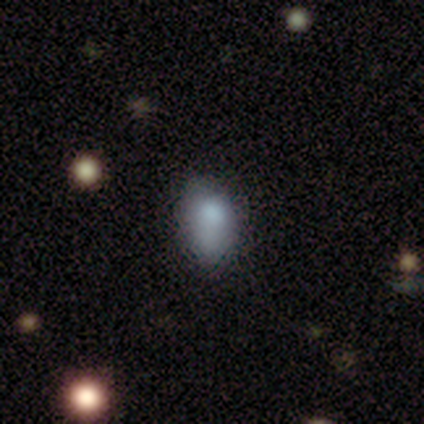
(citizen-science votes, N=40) Smooth or featured: smooth — 80% (featured or disk — 12%)
How rounded: in between — 88% (round — 12%)
Merging: none — 70% (minor disturbance — 22%)